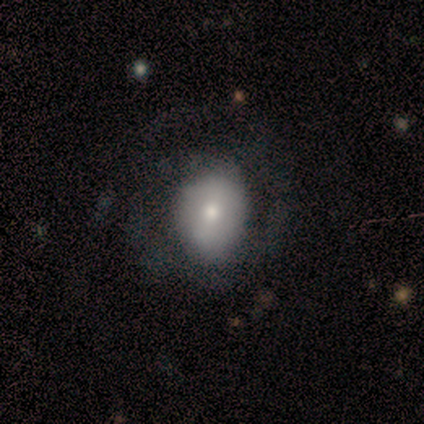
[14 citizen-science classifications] smooth_or_featured: smooth (p=0.50) [alt: featured or disk p=0.43]
how_rounded: round (p=0.57) [alt: in between p=0.43]
merging: none (p=0.62) [alt: minor disturbance p=0.23]